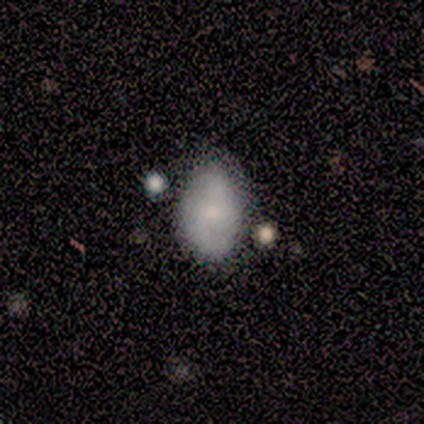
smooth-or-featured: smooth: 75% | featured or disk: 25% | star or artifact: 0%
  how-rounded: in between: 100% | round: 0% | cigar-shaped: 0%
  merging: none: 50% | minor disturbance: 25% | merger: 25% | major disturbance: 0%